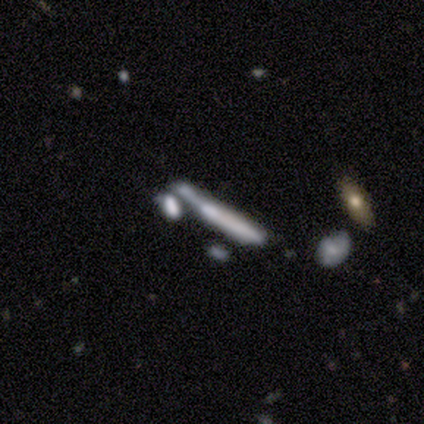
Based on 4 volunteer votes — smooth-or-featured: featured or disk: 50% | smooth: 25% | star or artifact: 25%
  disk-edge-on: yes: 100% | no: 0%
    edge-on-bulge: none: 100% | boxy: 0% | rounded: 0%
  merging: none: 67% | major disturbance: 33% | minor disturbance: 0% | merger: 0%